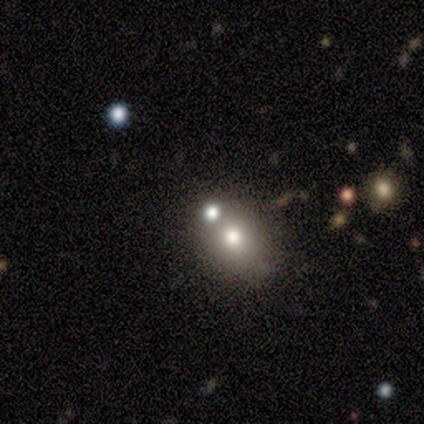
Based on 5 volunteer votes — smooth_or_featured: smooth (p=0.40) [tied with: star or artifact p=0.40]
how_rounded: round (p=0.50) [tied with: in between p=0.50]
merging: none (p=0.67) [alt: merger p=0.33]